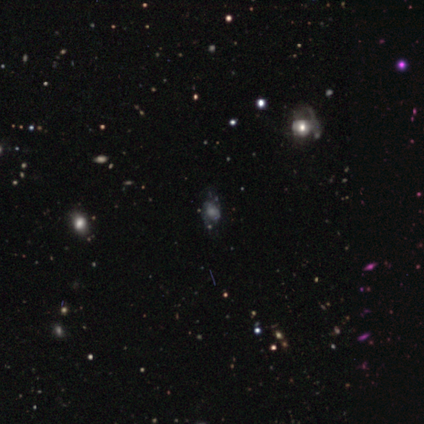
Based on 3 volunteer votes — This is likely a featured or disk galaxy (67%). It is clearly not viewed edge-on (100%). Bar: clearly no (100%). Spiral arm pattern: clearly yes (100%). Spiral arm count: clearly can't tell (100%). Spiral winding: clearly medium (100%). Central bulge: clearly large (100%). Merging: possibly none (50%, tied with major disturbance).